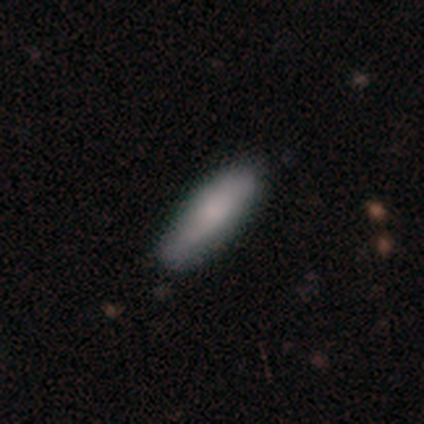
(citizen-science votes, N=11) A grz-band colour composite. It shows a smooth galaxy with no disk features (100%) that is cigar-shaped (64%). Merging: none (91%).